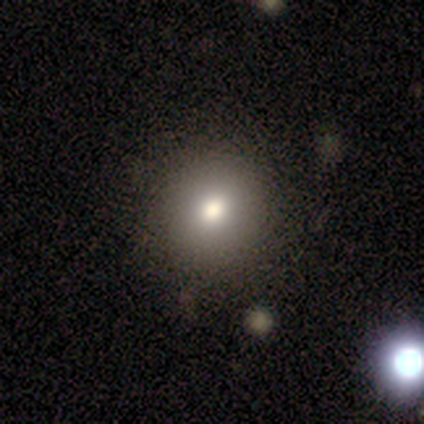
smooth 100%, featured or disk 0%, star or artifact 0%. Down the decision tree: how rounded — round (100%); merging — none (80%).